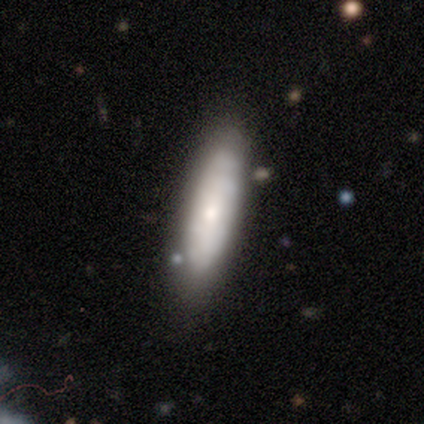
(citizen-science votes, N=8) Overall: smooth (62%; featured or disk 38%). How rounded: cigar-shaped (80%). Merging: none (62%).